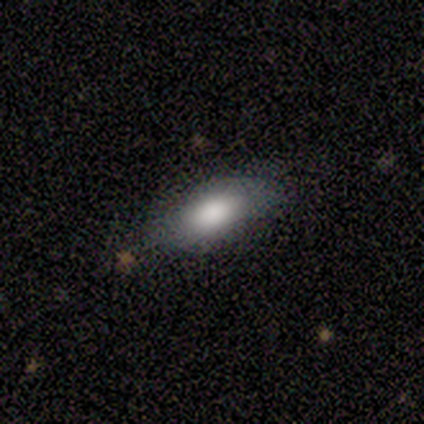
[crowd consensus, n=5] This appears to be a smooth galaxy with no disk features (60%) that is in between round and cigar-shaped (100%). Merging: none (40%, tied with minor disturbance).